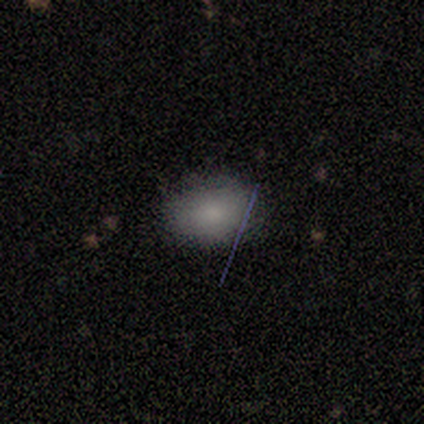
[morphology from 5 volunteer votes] Smooth or featured?
  - smooth: 80% *
  - star or artifact: 20%
  - featured or disk: 0%
How rounded?
  - in between: 100% *
  - round: 0%
  - cigar-shaped: 0%
Merging?
  - none: 100% *
  - minor disturbance: 0%
  - major disturbance: 0%
  - merger: 0%